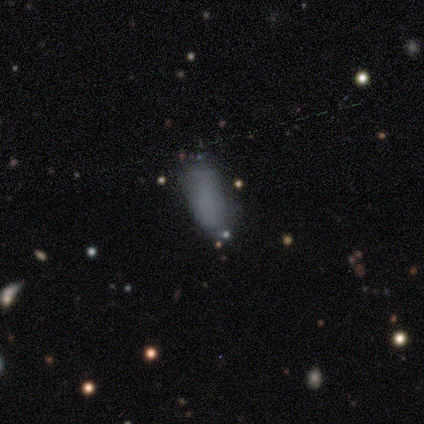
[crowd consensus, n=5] A smooth galaxy with no disk features (80%) that is in between round and cigar-shaped (75%). Merging: none (60%).